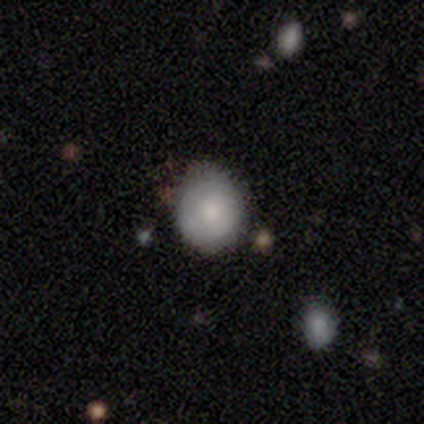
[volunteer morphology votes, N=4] Smooth or featured? 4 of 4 (100%) said smooth. How rounded? 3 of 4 (75%) said round. Merging? 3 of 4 (75%) said none.